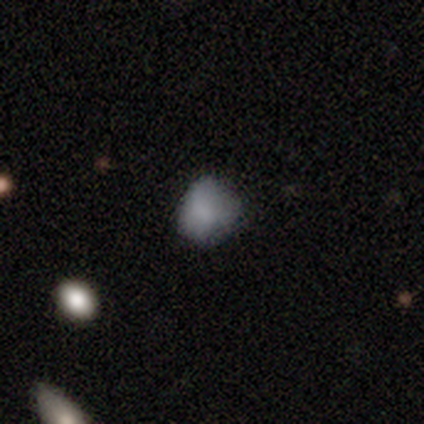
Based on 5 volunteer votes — This is clearly a smooth galaxy (100%). How rounded: clearly round (100%). Merging: likely none (60%).